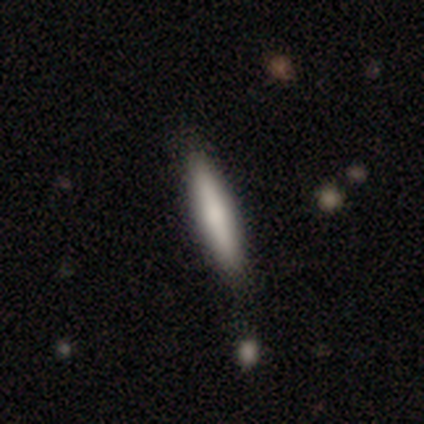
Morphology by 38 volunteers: Overall: smooth (63%; featured or disk 29%). How rounded: cigar-shaped (88%). Merging: none (80%).